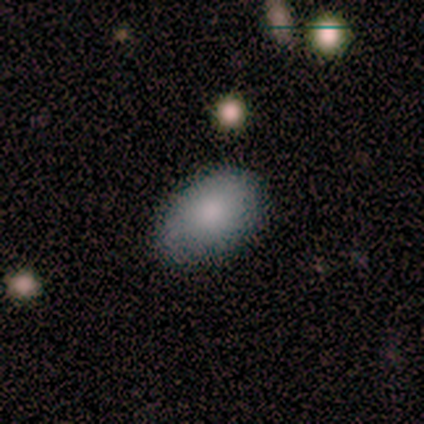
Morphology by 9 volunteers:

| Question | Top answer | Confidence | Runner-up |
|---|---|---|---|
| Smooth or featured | smooth | 78% | featured or disk (22%) |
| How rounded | in between | 86% | round (14%) |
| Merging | none | 100% | — |